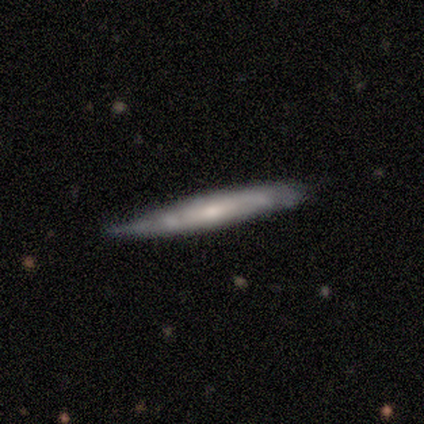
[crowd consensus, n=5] featured or disk 80%, smooth 20%, star or artifact 0%. Down the decision tree: edge-on disk — yes (75%); edge-on bulge — none (67%); merging — minor disturbance (80%).